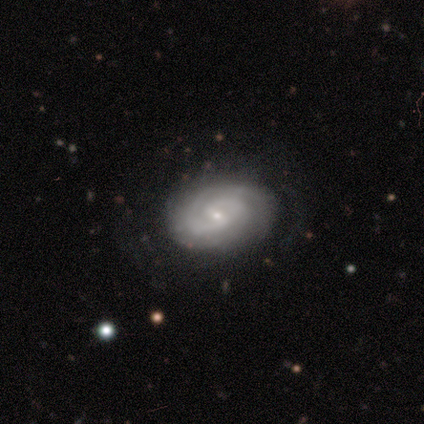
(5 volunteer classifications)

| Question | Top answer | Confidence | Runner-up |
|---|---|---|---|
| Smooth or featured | featured or disk | 100% | — |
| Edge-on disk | no | 100% | — |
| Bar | weak | 60% | strong (20%) |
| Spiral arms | yes | 100% | — |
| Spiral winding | tight | 60% | medium (40%) |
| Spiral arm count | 2 | 60% | 3 (40%) |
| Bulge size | moderate | 60% | small (40%) |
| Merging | none | 60% | minor disturbance (40%) |